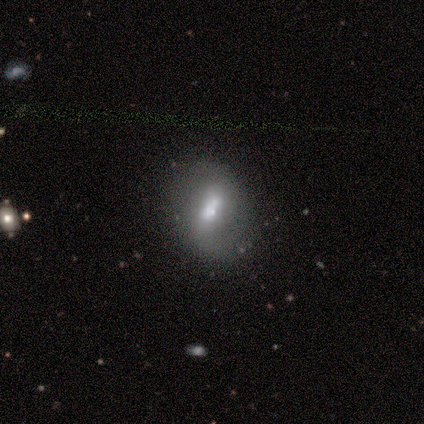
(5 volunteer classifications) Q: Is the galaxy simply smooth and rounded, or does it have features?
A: smooth — 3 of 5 (60%).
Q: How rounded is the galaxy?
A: in between — 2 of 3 (67%).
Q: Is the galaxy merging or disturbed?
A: none — 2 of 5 (40%).